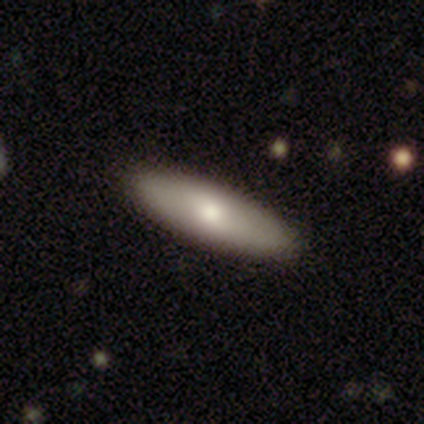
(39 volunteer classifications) Smooth or featured? smooth (62%)
How rounded? in between (71%)
Merging? none (87%)